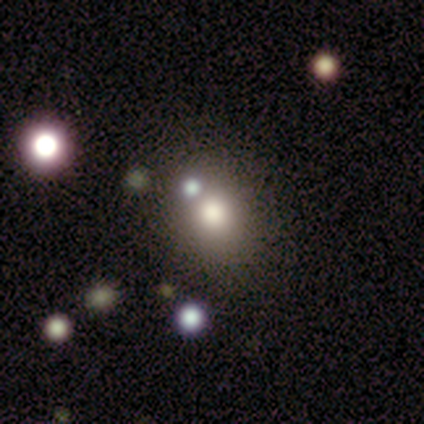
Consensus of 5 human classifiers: Smooth or featured? smooth (60%)
How rounded? round (100%)
Merging? none (75%)